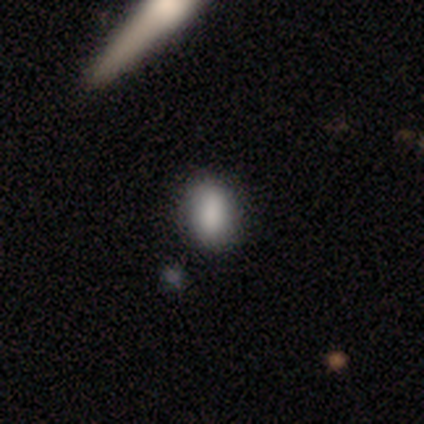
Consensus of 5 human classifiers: smooth 60%, featured or disk 40%, star or artifact 0%. Down the decision tree: how rounded — in between (100%); merging — none (60%).